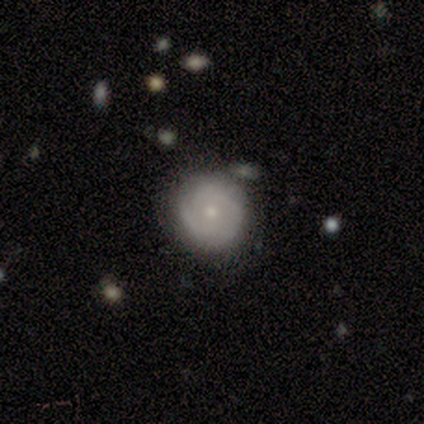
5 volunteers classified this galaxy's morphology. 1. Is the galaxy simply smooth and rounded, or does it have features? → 80% smooth, 20% featured or disk, 0% star or artifact.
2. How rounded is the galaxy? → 100% round, 0% in between, 0% cigar-shaped.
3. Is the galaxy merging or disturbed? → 60% none, 20% minor disturbance, 20% major disturbance, 0% merger.